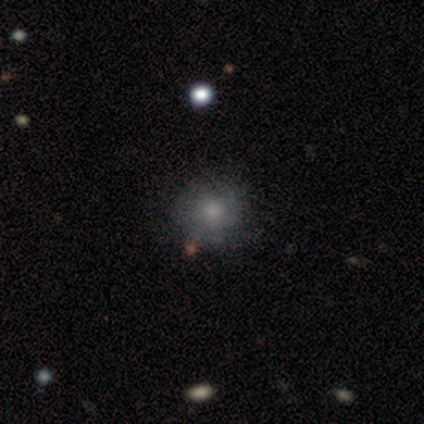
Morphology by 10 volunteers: Smooth or featured? 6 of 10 (60%) said smooth. How rounded? 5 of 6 (83%) said round. Merging? 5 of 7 (71%) said none.